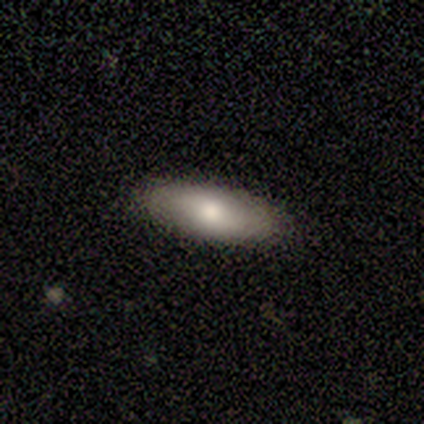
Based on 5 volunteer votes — smooth 80%, featured or disk 20%, star or artifact 0%. Down the decision tree: how rounded — in between (75%); merging — none (100%).